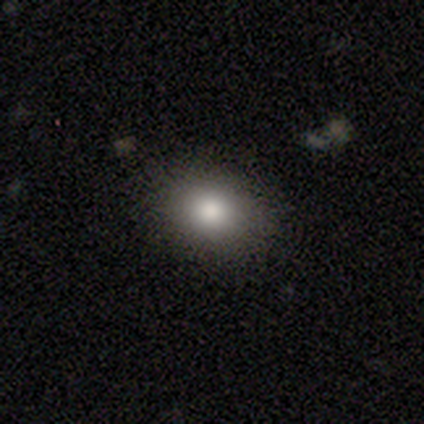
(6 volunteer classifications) Volunteers were most divided on "how rounded": round: 60%, in between: 40%, cigar-shaped: 0%. More confident: merging — none (100%); smooth or featured — smooth (83%).